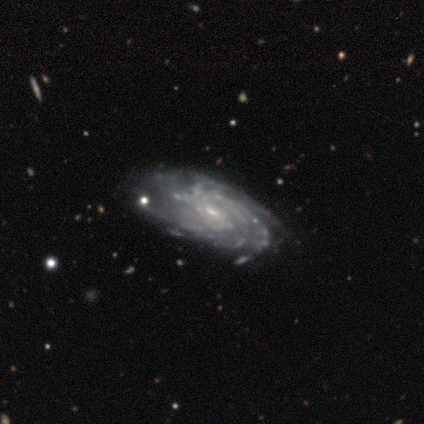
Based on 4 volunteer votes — Volunteers were most divided on "spiral arm count" (3-way tie): 3: 33%, 4: 33%, can't tell: 33%, 1: 0%, 2: 0%, more than 4: 0%. More confident: edge-on disk — no (100%); spiral arms — yes (100%); bulge size — small (100%); merging — none (100%); smooth or featured — featured or disk (75%); bar — weak (67%); spiral winding — tight (67%).